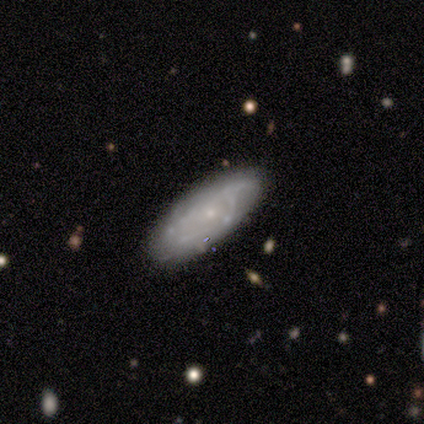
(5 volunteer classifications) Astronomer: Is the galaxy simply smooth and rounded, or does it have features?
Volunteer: featured or disk — 60% (runner-up: smooth, 40%).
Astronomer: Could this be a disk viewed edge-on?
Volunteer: no — 67%.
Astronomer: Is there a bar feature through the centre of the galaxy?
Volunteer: no — 100%.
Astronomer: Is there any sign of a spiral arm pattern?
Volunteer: yes — 50%, tied with no at 50%.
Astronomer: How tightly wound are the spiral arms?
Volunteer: tight — 100%.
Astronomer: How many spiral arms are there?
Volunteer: can't tell — 100%.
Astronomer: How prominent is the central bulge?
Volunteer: small — 100%.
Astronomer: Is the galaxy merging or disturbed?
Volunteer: none — 100%.